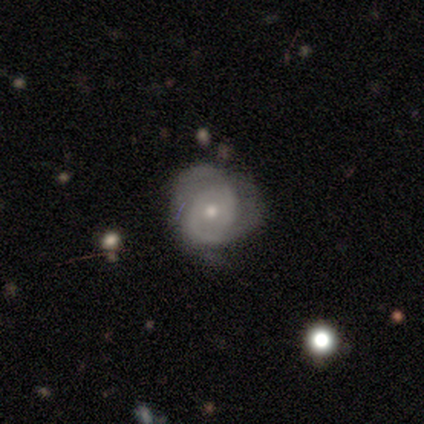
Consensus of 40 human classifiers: Volunteers were most divided on "spiral arm count": 2: 40%, can't tell: 36%, 3: 20%, 1: 4%, 4: 0%, more than 4: 0%. Remaining: edge-on disk — no (97%); spiral arms — yes (83%); smooth or featured — featured or disk (78%); bar — no (77%); bulge size — small (60%); spiral winding — tight (56%); merging — none (46%).